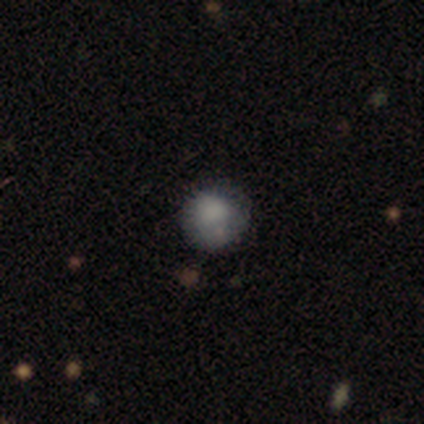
smooth-or-featured: smooth: 78% | featured or disk: 11% | star or artifact: 11%
  how-rounded: round: 100% | in between: 0% | cigar-shaped: 0%
  merging: none: 62% | minor disturbance: 25% | merger: 12% | major disturbance: 0%